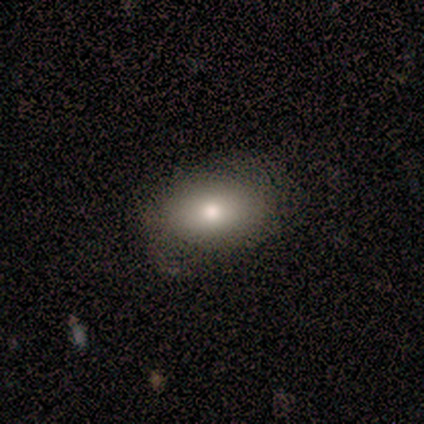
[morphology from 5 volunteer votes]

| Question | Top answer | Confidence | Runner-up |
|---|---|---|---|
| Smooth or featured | smooth | 100% | — |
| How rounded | in between | 60% | cigar-shaped (40%) |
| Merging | none | 80% | minor disturbance (20%) |